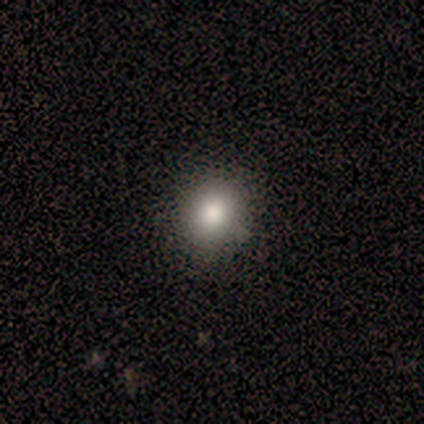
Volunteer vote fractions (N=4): A smooth galaxy with no disk features (50%, tied with featured or disk) that is round (100%). Merging: none (50%).